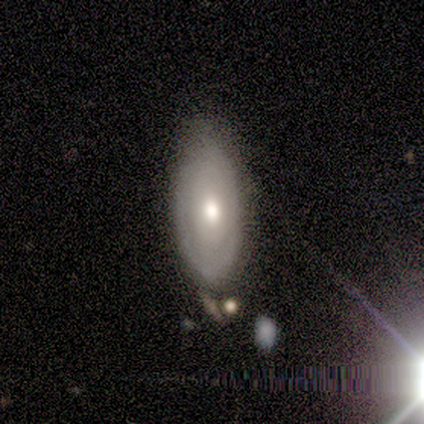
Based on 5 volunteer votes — smooth-or-featured: smooth: 80% | featured or disk: 20% | star or artifact: 0%
  how-rounded: in between: 100% | round: 0% | cigar-shaped: 0%
  merging: none: 60% | minor disturbance: 40% | major disturbance: 0% | merger: 0%